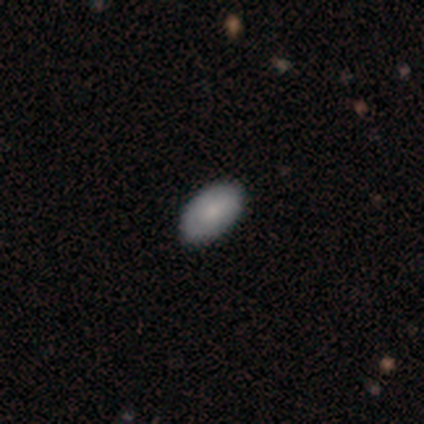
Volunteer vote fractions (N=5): Q: Smooth or featured?
A: smooth (100%)
Q: How rounded?
A: in between (100%)
Q: Merging?
A: none (100%)